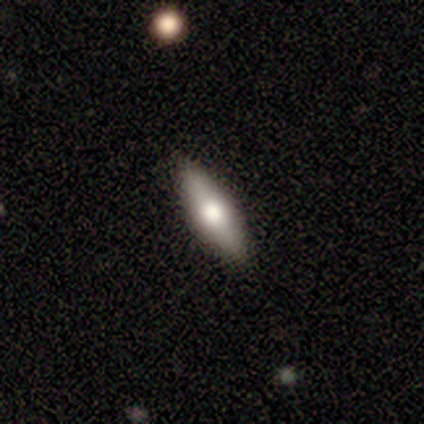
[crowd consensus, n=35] This appears to be a smooth galaxy with no disk features (60%) that is cigar-shaped (52%). Merging: none (94%).